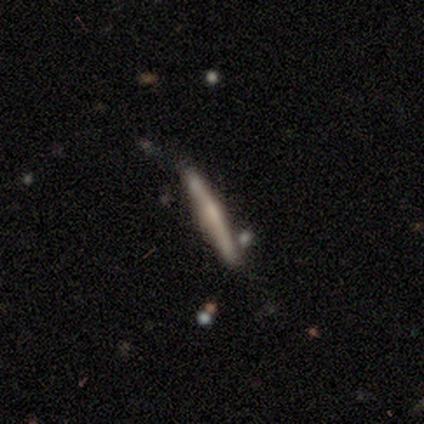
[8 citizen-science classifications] Volunteers were most divided on "smooth or featured": featured or disk: 50%, smooth: 38%, star or artifact: 12%. More confident: edge-on disk — yes (100%); edge-on bulge — rounded (75%); merging — none (71%).